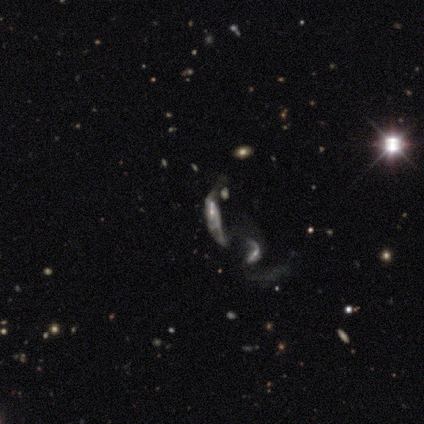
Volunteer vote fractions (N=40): smooth_or_featured: featured or disk (p=0.68) [alt: star or artifact p=0.17]
disk_edge_on: no (p=0.81) [alt: yes p=0.19]
bar: no (p=0.55) [alt: weak p=0.36]
has_spiral_arms: no (p=0.55) [alt: yes p=0.45]
bulge_size: small (p=0.59) [alt: none p=0.27]
merging: merger (p=0.61) [alt: major disturbance p=0.24]